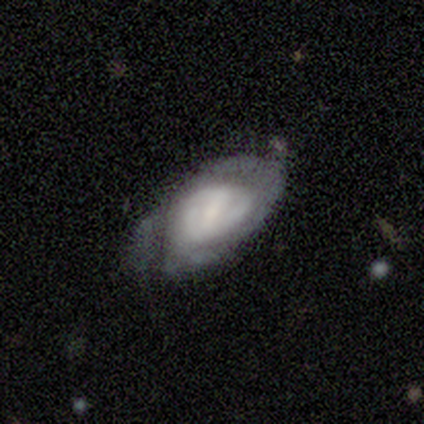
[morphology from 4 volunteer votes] This appears to be a featured or disk galaxy (75%) with a weak bar (67%), medium (67%) spiral arms (100%) and a moderate central bulge (33%, tied with small and none). Merging: none (50%).